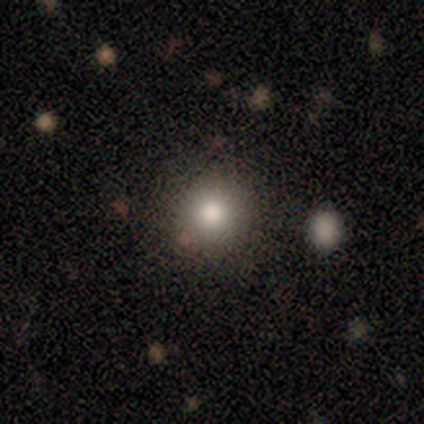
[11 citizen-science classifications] Smooth or featured: smooth — 64% (star or artifact — 27%)
How rounded: round — 100%
Merging: none — 100%